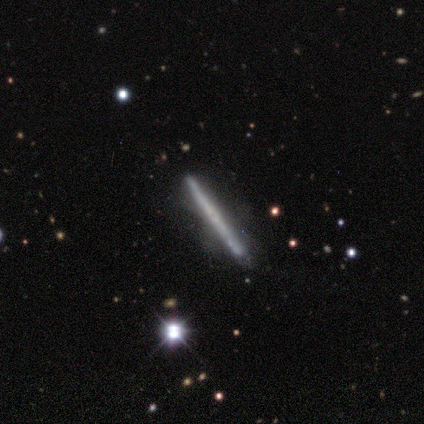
Q: Smooth or featured?
A: featured or disk (40%); tied with: star or artifact (40%)
Q: Edge-on disk?
A: yes (100%)
Q: Edge-on bulge?
A: none (50%); tied with: rounded (50%)
Q: Merging?
A: none (67%); runner-up: minor disturbance (33%)